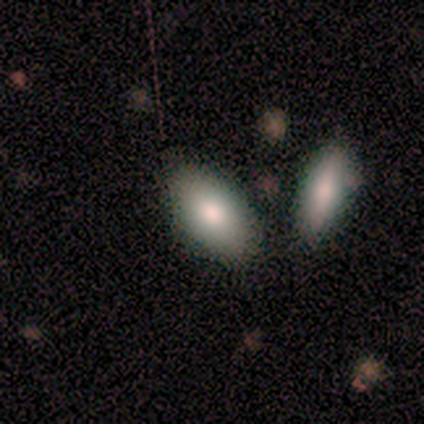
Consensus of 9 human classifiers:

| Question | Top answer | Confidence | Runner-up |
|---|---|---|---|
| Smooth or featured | smooth | 100% | — |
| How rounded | in between | 89% | cigar-shaped (11%) |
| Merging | none | 44% | minor disturbance (33%) |